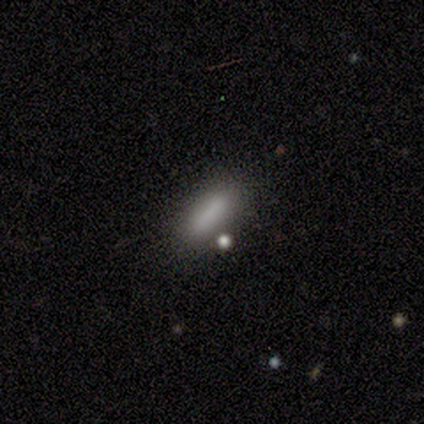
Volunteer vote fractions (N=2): This appears to be a smooth galaxy with no disk features (50%, tied with star or artifact) that is cigar-shaped (100%). Merging: none (100%).